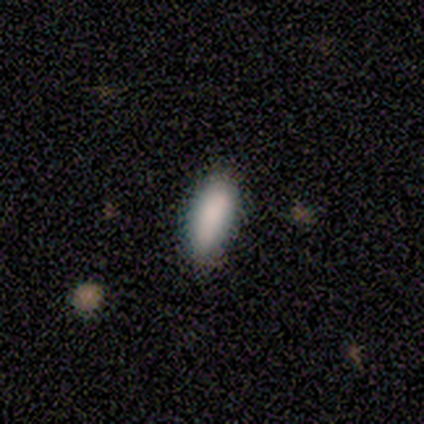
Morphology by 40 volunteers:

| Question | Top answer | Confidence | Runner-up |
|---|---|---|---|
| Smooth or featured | smooth | 95% | featured or disk (2%) |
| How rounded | in between | 79% | cigar-shaped (21%) |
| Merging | none | 38% | minor disturbance (15%) |